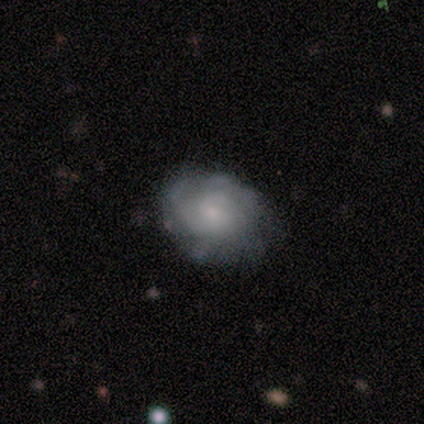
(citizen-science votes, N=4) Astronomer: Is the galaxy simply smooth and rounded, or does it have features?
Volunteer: smooth — 50%, tied with featured or disk at 50%.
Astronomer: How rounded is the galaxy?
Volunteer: round — 50%, tied with in between at 50%.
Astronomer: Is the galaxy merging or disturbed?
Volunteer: none — 100%.